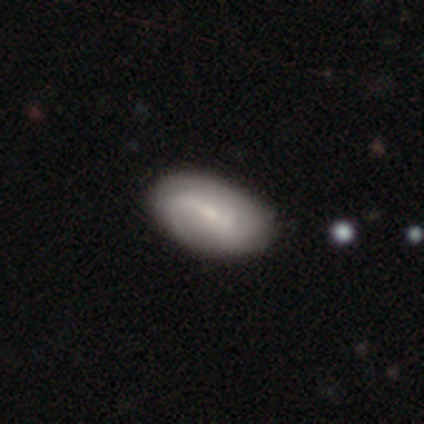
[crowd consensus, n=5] Overall: featured or disk (80%). Edge-on disk: no (100%). Bar: weak (50%; strong 25%). Spiral arms: yes (75%). Spiral arm count: can't tell (67%; 3 33%). Spiral winding: medium (67%; tight 33%). Bulge size: small (50%; moderate 25%). Merging: none (100%).